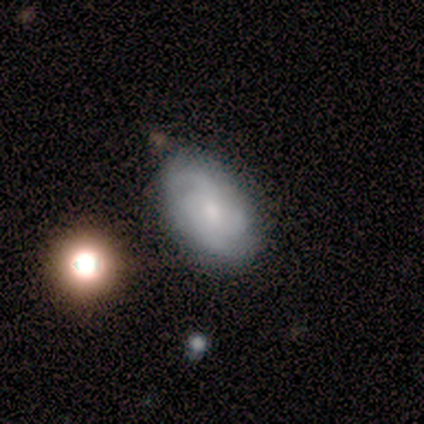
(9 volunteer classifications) Smooth or featured?
  - featured or disk: 67% *
  - smooth: 22%
  - star or artifact: 11%
Edge-on disk?
  - no: 100% *
  - yes: 0%
Bar?
  - no: 50% *
  - strong: 33%
  - weak: 17%
Spiral arms?
  - yes: 100% *
  - no: 0%
Spiral winding?
  - tight: 67% *
  - medium: 33%
  - loose: 0%
Spiral arm count?
  - can't tell: 50% *
  - 3: 33%
  - 2: 17%
  - 1: 0%
  - 4: 0%
  - more than 4: 0%
Bulge size?
  - moderate: 50% *
  - small: 33%
  - dominant: 17%
  - large: 0%
  - none: 0%
Merging?
  - none: 62% *
  - minor disturbance: 25%
  - major disturbance: 12%
  - merger: 0%